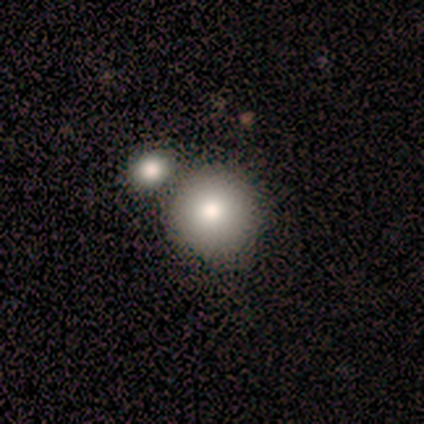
Smooth or featured?
  - featured or disk: 60% *
  - smooth: 40%
  - star or artifact: 0%
Edge-on disk?
  - no: 100% *
  - yes: 0%
Bar?
  - no: 100% *
  - strong: 0%
  - weak: 0%
Spiral arms?
  - no: 100% *
  - yes: 0%
Bulge size?
  - moderate: 100% *
  - dominant: 0%
  - large: 0%
  - small: 0%
  - none: 0%
Merging?
  - none: 60% *
  - merger: 40%
  - minor disturbance: 0%
  - major disturbance: 0%